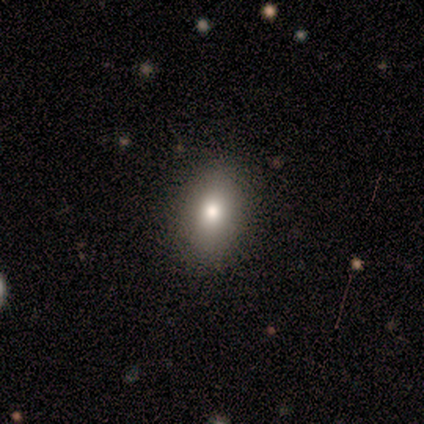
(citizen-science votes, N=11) A smooth galaxy with no disk features (82%) that is in between round and cigar-shaped (78%). Merging: none (100%).